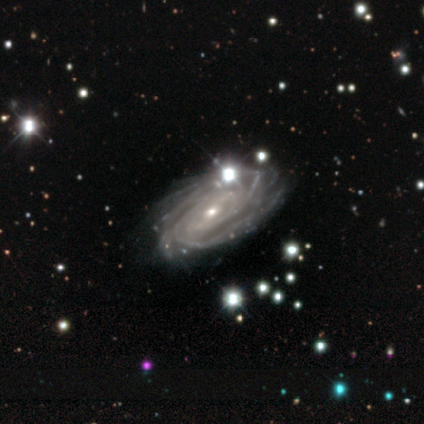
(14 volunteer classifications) This appears to be a featured or disk galaxy (100%) with a weak bar (57%), more than 4 (43%) tight (64%) spiral arms (100%) and a small central bulge (71%). Merging: none (86%).